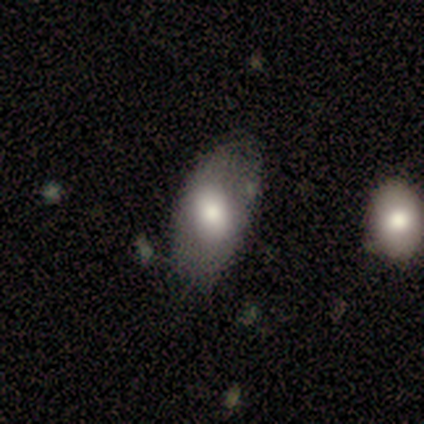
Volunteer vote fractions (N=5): A smooth galaxy with no disk features (80%) that is in between round and cigar-shaped (75%).

Vote fractions:
- Smooth or featured? smooth: 80% / featured or disk: 20% / star or artifact: 0%
- How rounded? in between: 75% / round: 25% / cigar-shaped: 0%
- Merging? none: 80% / minor disturbance: 20% / major disturbance: 0% / merger: 0%